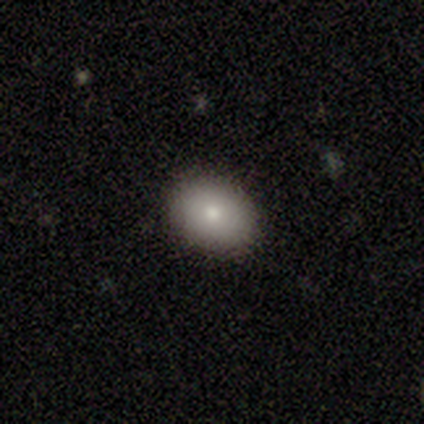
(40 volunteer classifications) This is likely a smooth galaxy (75%). How rounded: possibly in between (57%). Merging: clearly none (92%).